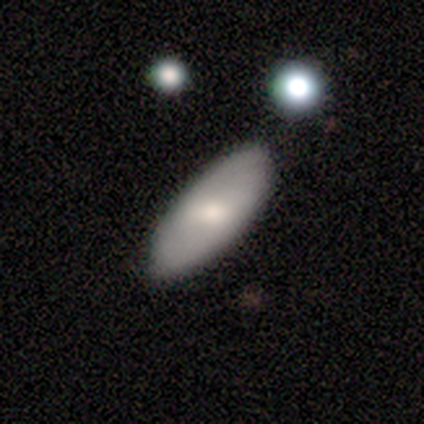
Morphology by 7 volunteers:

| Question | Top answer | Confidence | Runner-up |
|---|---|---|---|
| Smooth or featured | smooth | 57% | featured or disk (29%) |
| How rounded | in between | 75% | round (25%) |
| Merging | minor disturbance | 50% | none (33%) |